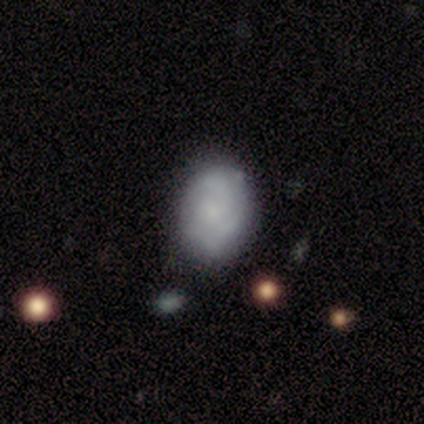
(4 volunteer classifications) Smooth or featured? 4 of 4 (100%) said smooth. How rounded? 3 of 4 (75%) said in between. Merging? 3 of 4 (75%) said none.